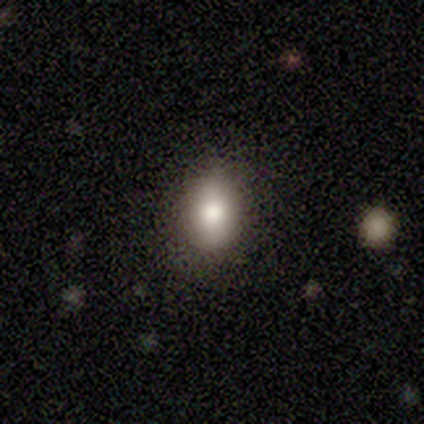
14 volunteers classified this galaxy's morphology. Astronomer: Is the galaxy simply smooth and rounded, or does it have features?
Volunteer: smooth — 93%.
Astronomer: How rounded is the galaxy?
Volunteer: in between — 100%.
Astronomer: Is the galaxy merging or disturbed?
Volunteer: none — 71%.